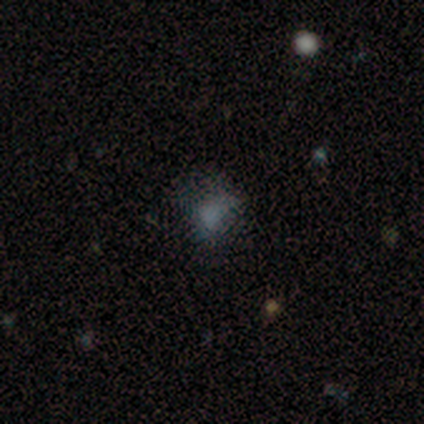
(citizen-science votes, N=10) Morphology: type=smooth (50%); roundness=in between (80%); merging=none (33%, tied with minor disturbance and major disturbance).